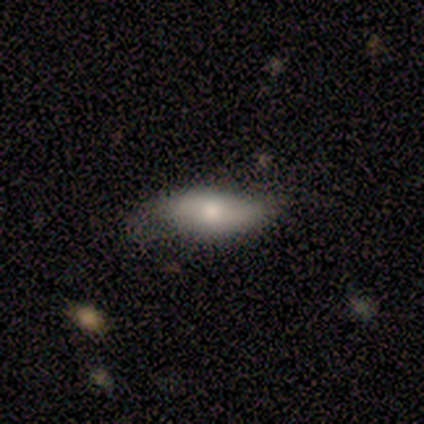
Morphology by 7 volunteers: smooth 71%, featured or disk 29%, star or artifact 0%. Down the decision tree: how rounded — in between (60%); merging — none (86%).